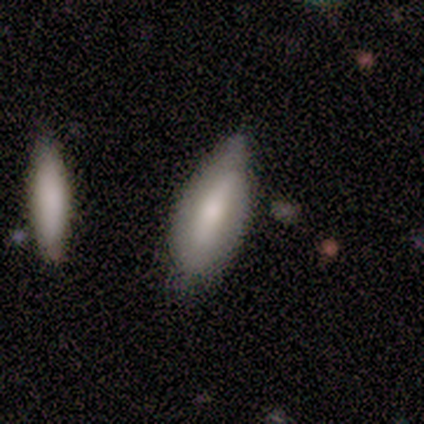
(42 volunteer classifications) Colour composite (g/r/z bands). It shows a smooth galaxy with no disk features (57%) that is in between round and cigar-shaped (79%). Merging: minor disturbance (50%).